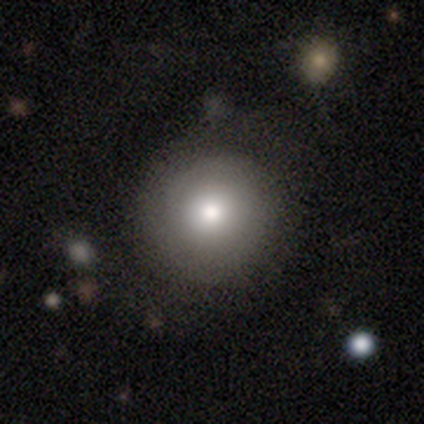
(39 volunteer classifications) Smooth or featured? 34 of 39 (87%) said smooth. How rounded? 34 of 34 (100%) said round. Merging? 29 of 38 (76%) said none.